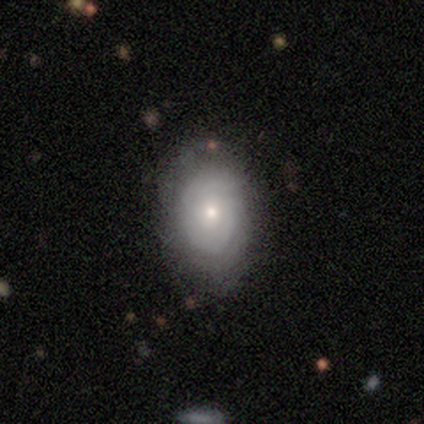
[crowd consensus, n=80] A smooth galaxy with no disk features (48%) that is in between round and cigar-shaped (82%).

Vote fractions:
- Smooth or featured? smooth: 48% / featured or disk: 46% / star or artifact: 6%
- How rounded? in between: 82% / round: 18% / cigar-shaped: 0%
- Merging? none: 48% / minor disturbance: 12% / major disturbance: 1% / merger: 1%